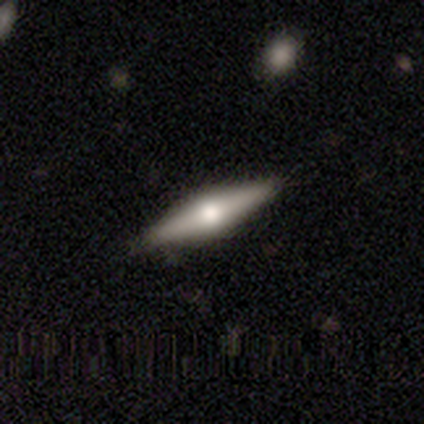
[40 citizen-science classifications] This is likely a featured or disk galaxy (70%). It is clearly viewed edge-on (93%). Edge-on bulge: clearly rounded (92%). Merging: possibly none (59%).